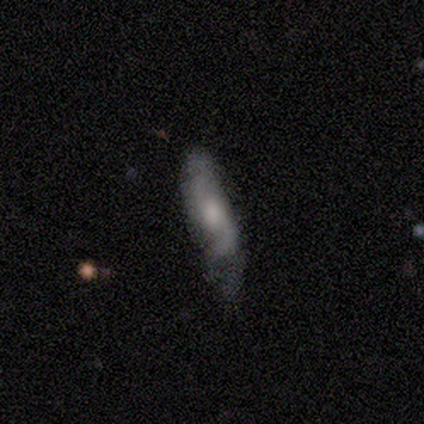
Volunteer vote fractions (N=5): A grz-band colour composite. It shows a featured or disk galaxy (80%) with no bar (67%), 2 (67%) medium (67%) spiral arms (100%) and a moderate central bulge (67%). Merging: none (80%).